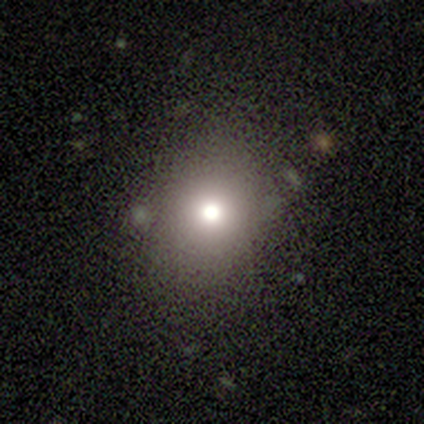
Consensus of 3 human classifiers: smooth-or-featured: smooth: 67% | featured or disk: 33% | star or artifact: 0%
  how-rounded: round: 50% (tied) | in between: 50% (tied) | cigar-shaped: 0%
  merging: none: 67% | minor disturbance: 33% | major disturbance: 0% | merger: 0%